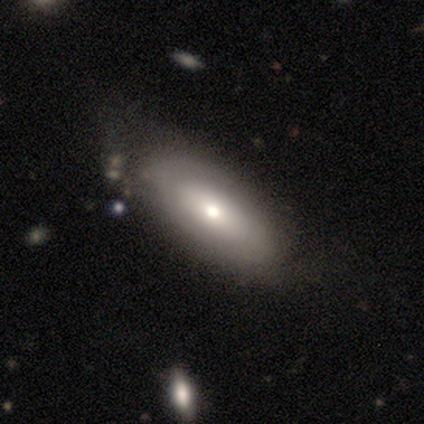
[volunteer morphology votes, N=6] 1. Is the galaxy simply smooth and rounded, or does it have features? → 83% smooth, 17% featured or disk, 0% star or artifact.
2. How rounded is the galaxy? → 100% in between, 0% round, 0% cigar-shaped.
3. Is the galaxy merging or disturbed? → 83% none, 17% minor disturbance, 0% major disturbance, 0% merger.